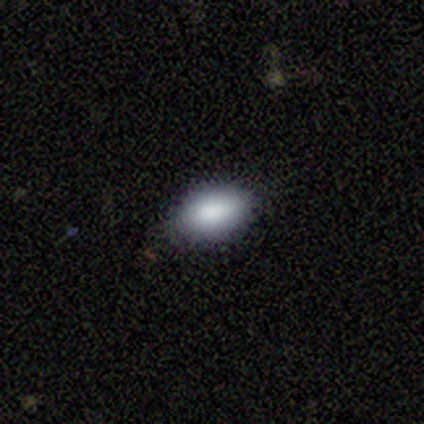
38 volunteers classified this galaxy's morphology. Smooth or featured? 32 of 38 (84%) said smooth. How rounded? 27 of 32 (84%) said in between. Merging? 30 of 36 (83%) said none.